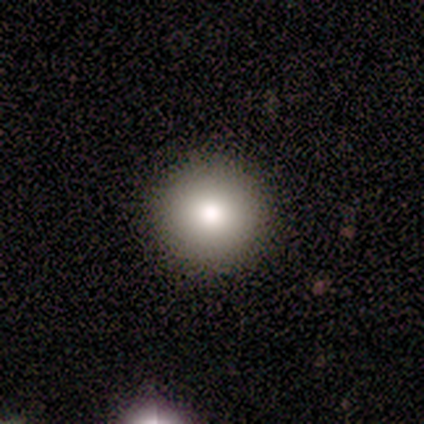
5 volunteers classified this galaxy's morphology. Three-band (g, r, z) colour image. It shows a smooth galaxy with no disk features (80%) that is round (100%). Merging: none (100%).